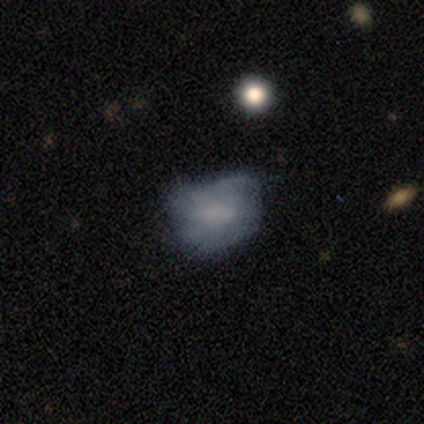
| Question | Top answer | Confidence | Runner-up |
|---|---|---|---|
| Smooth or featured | smooth | 100% | — |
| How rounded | in between | 60% | round (40%) |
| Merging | minor disturbance | 40% | tied: major disturbance (40%) |